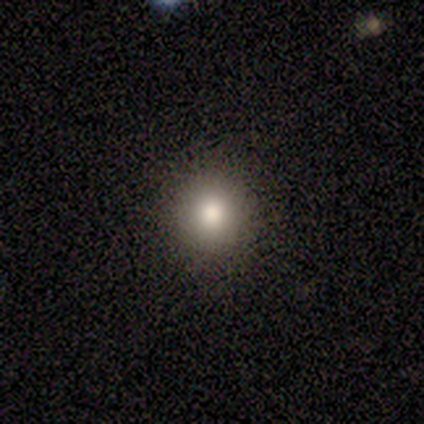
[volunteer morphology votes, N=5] Overall: smooth (80%). How rounded: round (100%). Merging: none (100%).